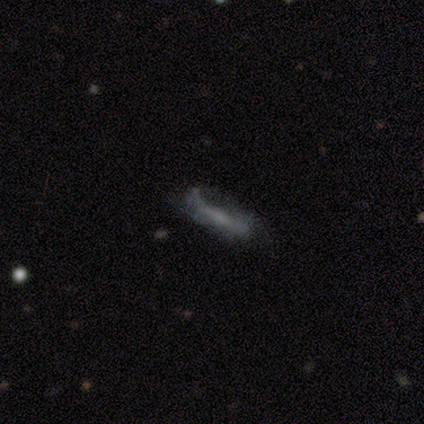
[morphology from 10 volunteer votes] Overall: smooth (50%; featured or disk 40%). How rounded: cigar-shaped (100%). Merging: none (56%; minor disturbance 44%).